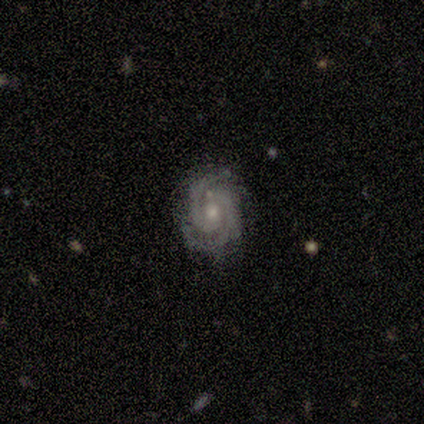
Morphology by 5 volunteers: Smooth or featured?
  - featured or disk: 100% *
  - smooth: 0%
  - star or artifact: 0%
Edge-on disk?
  - no: 80% *
  - yes: 20%
Bar?
  - no: 50% *
  - strong: 25%
  - weak: 25%
Spiral arms?
  - yes: 100% *
  - no: 0%
Spiral winding?
  - tight: 75% *
  - medium: 25%
  - loose: 0%
Spiral arm count?
  - 2: 100% *
  - 1: 0%
  - 3: 0%
  - 4: 0%
  - more than 4: 0%
  - can't tell: 0%
Bulge size?
  - moderate: 75% *
  - small: 25%
  - dominant: 0%
  - large: 0%
  - none: 0%
Merging?
  - none: 80% *
  - minor disturbance: 20%
  - major disturbance: 0%
  - merger: 0%